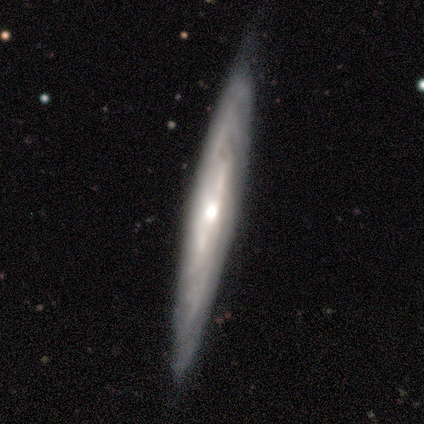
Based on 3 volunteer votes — smooth_or_featured: smooth (p=0.67) [alt: featured or disk p=0.33]
how_rounded: cigar-shaped (p=1.00)
merging: none (p=0.67) [alt: minor disturbance p=0.33]